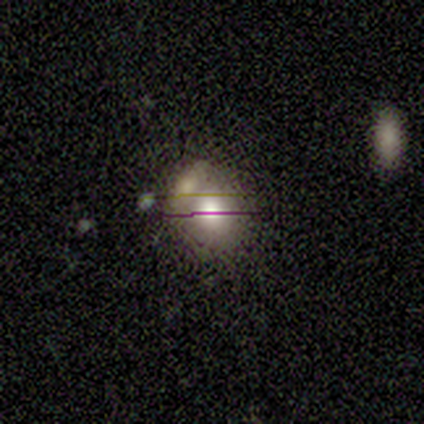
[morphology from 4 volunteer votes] Smooth or featured?
  - smooth: 75% *
  - star or artifact: 25%
  - featured or disk: 0%
How rounded?
  - in between: 67% *
  - round: 33%
  - cigar-shaped: 0%
Merging?
  - none: 33% * (tied)
  - minor disturbance: 33% * (tied)
  - merger: 33% * (tied)
  - major disturbance: 0%